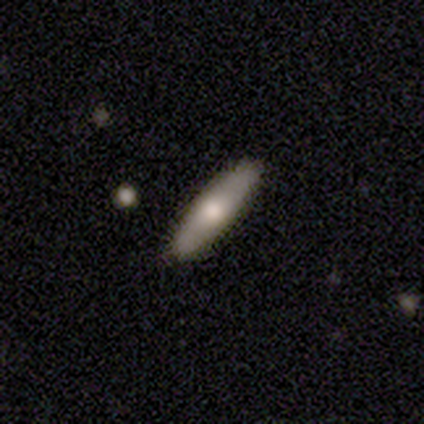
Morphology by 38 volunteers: A smooth galaxy with no disk features (63%) that is cigar-shaped (71%). Merging: none (94%).